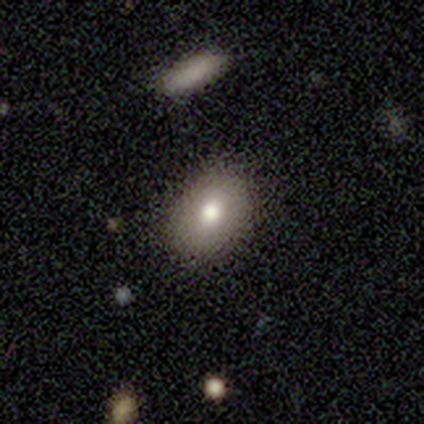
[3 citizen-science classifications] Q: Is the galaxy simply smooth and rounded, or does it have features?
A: smooth — 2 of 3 (67%).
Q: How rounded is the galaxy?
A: round — 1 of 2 (50%, tied with in between).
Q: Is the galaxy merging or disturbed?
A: none — 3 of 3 (100%).